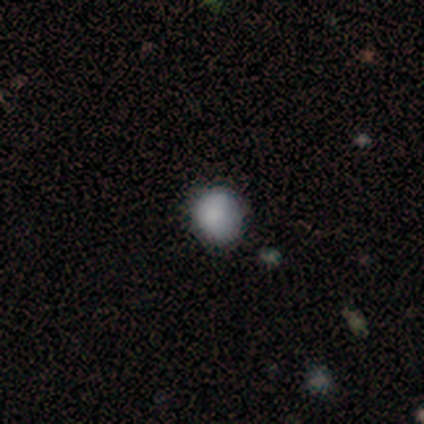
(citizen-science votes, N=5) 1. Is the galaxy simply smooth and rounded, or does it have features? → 100% smooth, 0% featured or disk, 0% star or artifact.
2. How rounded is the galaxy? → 80% round, 20% in between, 0% cigar-shaped.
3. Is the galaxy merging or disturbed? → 80% none, 20% minor disturbance, 0% major disturbance, 0% merger.